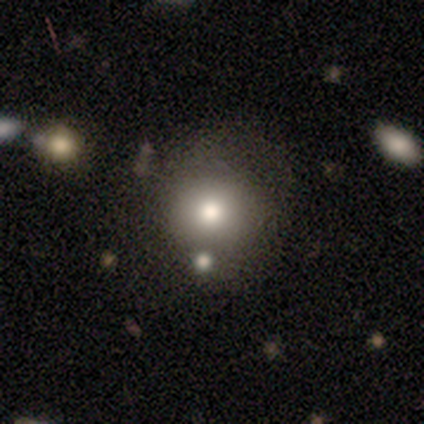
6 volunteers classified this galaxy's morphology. Smooth or featured: smooth — 83% (star or artifact — 17%)
How rounded: round — 100%
Merging: none — 60% (minor disturbance — 20%)